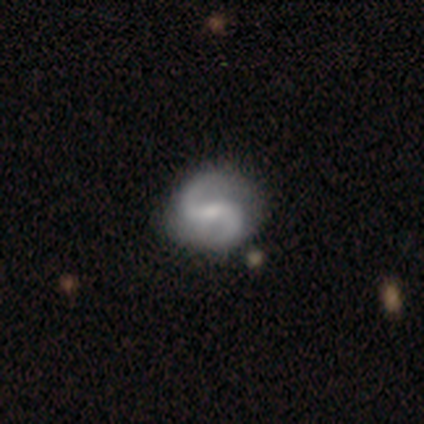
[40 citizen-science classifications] Morphology: type=featured or disk (98%); edge-on=no (97%); bar=weak (47%); spiral arms=yes (100%); winding=medium (61%); arm count=2 (100%); bulge=small (61%); merging=none (64%).